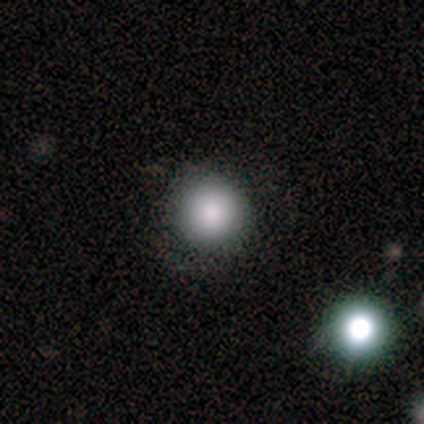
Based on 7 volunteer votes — A smooth galaxy with no disk features (86%) that is round (100%). Merging: none (86%).